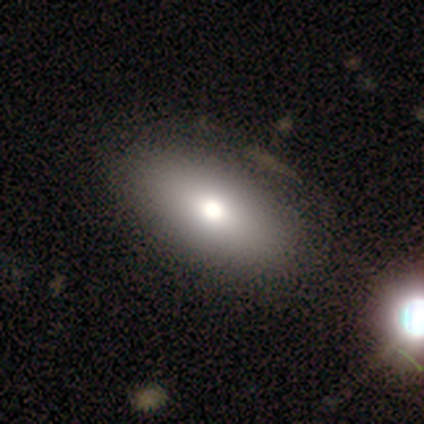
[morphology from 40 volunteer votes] Volunteers were most divided on "merging": none: 69%, minor disturbance: 13%, merger: 8%, major disturbance: 5%. More confident: how rounded — in between (94%); smooth or featured — smooth (78%).